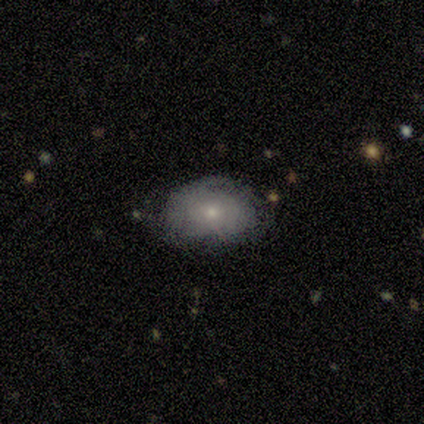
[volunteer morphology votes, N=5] Smooth or featured: featured or disk — 60% (smooth — 40%)
Edge-on disk: no — 100%
Bar: strong — 33% (tied with weak — 33%; no — 33%)
Spiral arms: yes — 67% (no — 33%)
Spiral winding: tight — 100%
Spiral arm count: 1 — 50% (tied with can't tell — 50%)
Bulge size: moderate — 67% (dominant — 33%)
Merging: none — 60% (minor disturbance — 20%)